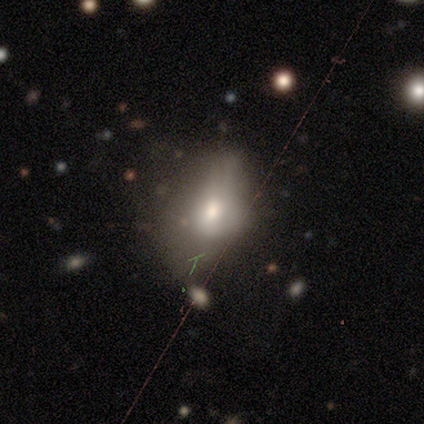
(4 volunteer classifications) A smooth galaxy with no disk features (50%) that is in between round and cigar-shaped (100%). Merging: major disturbance (67%).